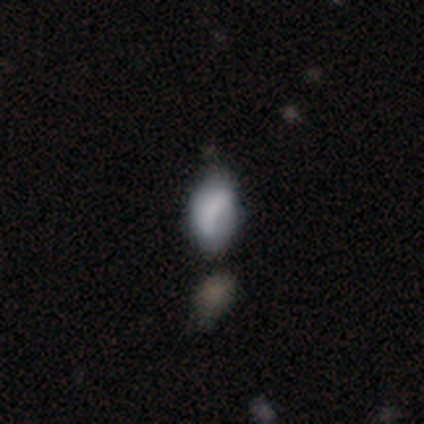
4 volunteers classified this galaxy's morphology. smooth-or-featured: smooth: 50% | featured or disk: 25% | star or artifact: 25%
  how-rounded: round: 50% (tied) | in between: 50% (tied) | cigar-shaped: 0%
  merging: none: 67% | merger: 33% | minor disturbance: 0% | major disturbance: 0%